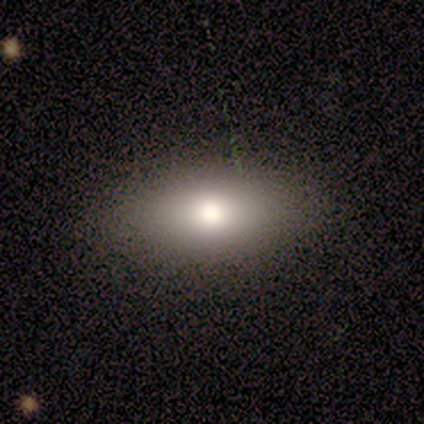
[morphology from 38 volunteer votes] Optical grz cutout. It shows a smooth galaxy with no disk features (84%) that is in between round and cigar-shaped (94%). Merging: none (78%).